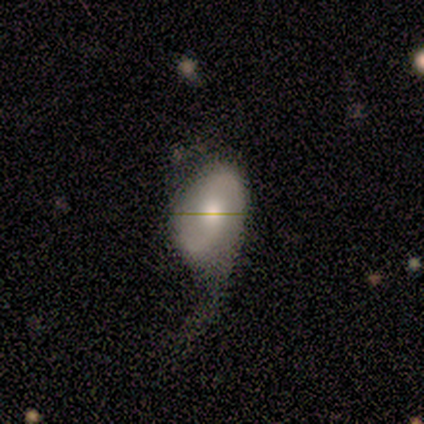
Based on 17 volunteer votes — Smooth or featured?
  - featured or disk: 71% *
  - smooth: 29%
  - star or artifact: 0%
Edge-on disk?
  - no: 100% *
  - yes: 0%
Bar?
  - no: 50% *
  - weak: 42%
  - strong: 8%
Spiral arms?
  - yes: 100% *
  - no: 0%
Spiral winding?
  - loose: 67% *
  - medium: 25%
  - tight: 8%
Spiral arm count?
  - 2: 75% *
  - 1: 17%
  - can't tell: 8%
  - 3: 0%
  - 4: 0%
  - more than 4: 0%
Bulge size?
  - moderate: 92% *
  - large: 8%
  - dominant: 0%
  - small: 0%
  - none: 0%
Merging?
  - major disturbance: 41% *
  - none: 35%
  - minor disturbance: 24%
  - merger: 0%